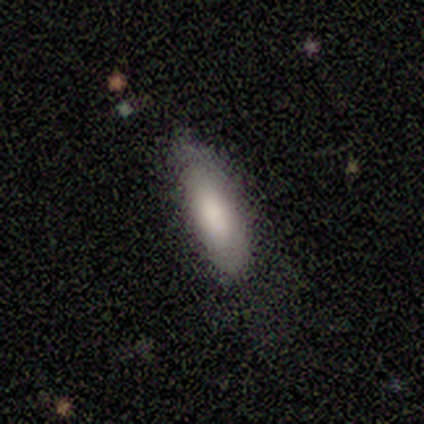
Morphology: type=smooth (100%); roundness=cigar-shaped (60%); merging=none (80%).